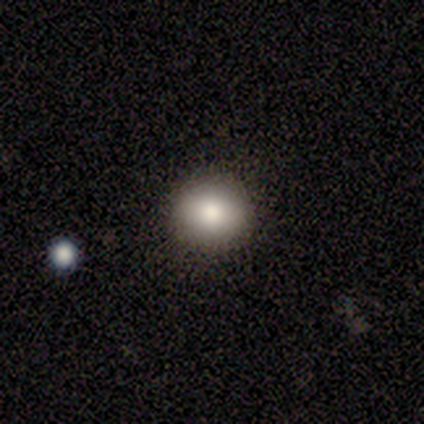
smooth-or-featured: smooth: 83% | star or artifact: 17% | featured or disk: 0%
  how-rounded: round: 60% | in between: 40% | cigar-shaped: 0%
  merging: none: 100% | minor disturbance: 0% | major disturbance: 0% | merger: 0%